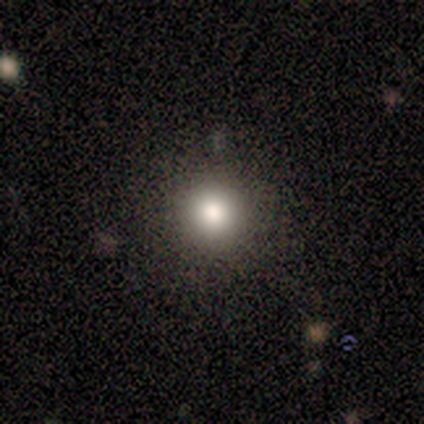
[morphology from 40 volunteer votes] A smooth galaxy with no disk features (75%) that is round (90%). Merging: none (91%).